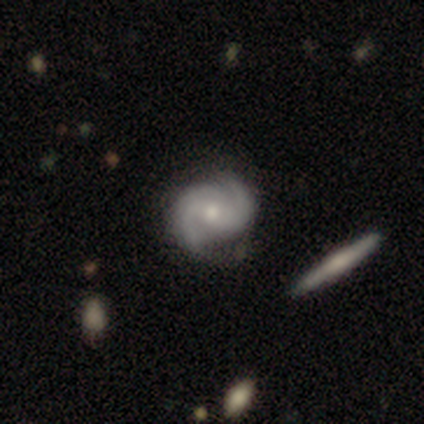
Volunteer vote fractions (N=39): smooth-or-featured: featured or disk: 90% | smooth: 8% | star or artifact: 3%
  disk-edge-on: no: 94% | yes: 6%
    bar: no: 58% | weak: 36% | strong: 6%
    has-spiral-arms: yes: 100% | no: 0%
      spiral-winding: medium: 52% | tight: 27% | loose: 21%
      spiral-arm-count: 2: 85% | 3: 15% | 1: 0% | 4: 0% | more than 4: 0% | can't tell: 0%
    bulge-size: moderate: 58% | small: 36% | none: 6% | dominant: 0% | large: 0%
  merging: none: 45% | minor disturbance: 16% | merger: 13% | major disturbance: 0%